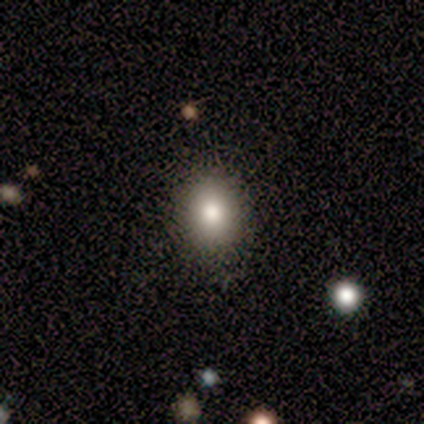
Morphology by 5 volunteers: Smooth or featured? smooth (100%)
How rounded? round (80%)
Merging? none (80%)